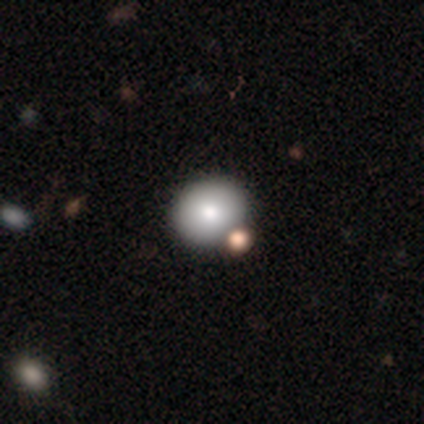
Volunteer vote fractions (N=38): Smooth or featured? smooth (84%)
How rounded? round (84%)
Merging? none (79%)